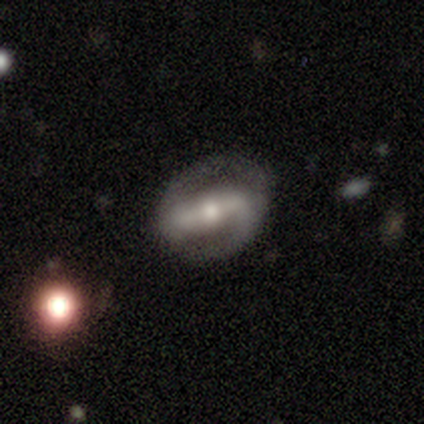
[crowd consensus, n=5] A featured or disk galaxy (80%) with a strong bar (100%), 2 (100%) medium (75%) spiral arms (100%) and a moderate central bulge (50%). Merging: none (100%).